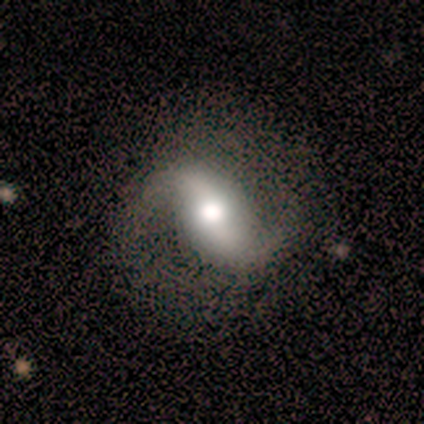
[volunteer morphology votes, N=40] smooth_or_featured: featured or disk (p=0.90) [alt: smooth p=0.05]
disk_edge_on: no (p=1.00)
bar: strong (p=0.47) [alt: weak p=0.31]
has_spiral_arms: yes (p=0.89) [alt: no p=0.11]
spiral_winding: loose (p=0.75) [alt: medium p=0.16]
spiral_arm_count: 2 (p=0.97) [alt: 1 p=0.03]
bulge_size: moderate (p=0.53) [alt: large p=0.33]
merging: none (p=0.79) [alt: minor disturbance p=0.18]